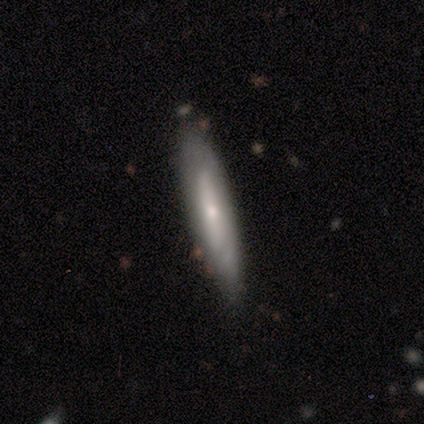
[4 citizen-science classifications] smooth-or-featured: smooth: 50% (tied) | featured or disk: 50% (tied) | star or artifact: 0%
  how-rounded: cigar-shaped: 100% | round: 0% | in between: 0%
  merging: none: 50% (tied) | minor disturbance: 50% (tied) | major disturbance: 0% | merger: 0%